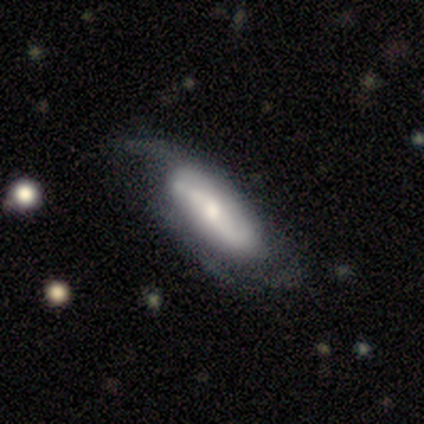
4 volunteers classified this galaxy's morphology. Overall: featured or disk (75%). Edge-on disk: yes (67%; no 33%). Edge-on bulge: boxy (50%, tied with rounded). Merging: major disturbance (50%; none 25%).